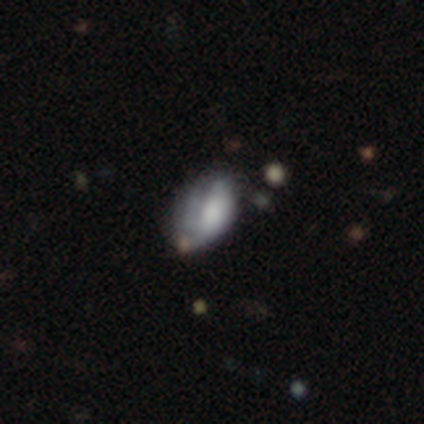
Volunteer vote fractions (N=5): smooth_or_featured: smooth (p=0.80) [alt: featured or disk p=0.20]
how_rounded: in between (p=0.75) [alt: round p=0.25]
merging: minor disturbance (p=0.40) [tied with: major disturbance p=0.40]